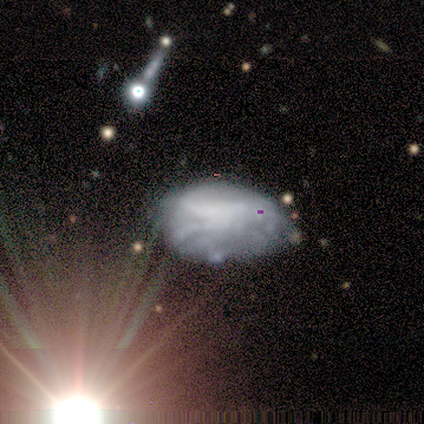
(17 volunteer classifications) Volunteers were most divided on "spiral arms" (2-way tie): yes: 50%, no: 50%. Remaining: edge-on disk — no (100%); spiral arm count — can't tell (100%); bar — no (90%); bulge size — none (80%); spiral winding — tight (60%); smooth or featured — featured or disk (59%); merging — none (47%).